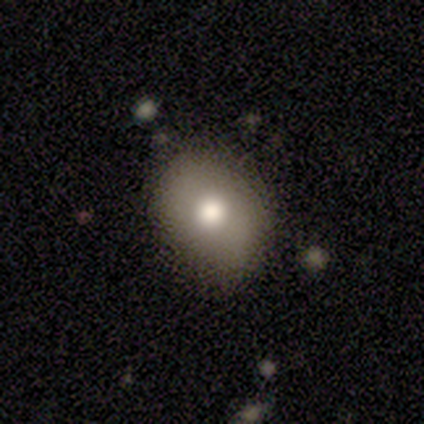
smooth-or-featured: smooth: 50% (tied) | featured or disk: 50% (tied) | star or artifact: 0%
  how-rounded: in between: 100% | round: 0% | cigar-shaped: 0%
  merging: none: 100% | minor disturbance: 0% | major disturbance: 0% | merger: 0%